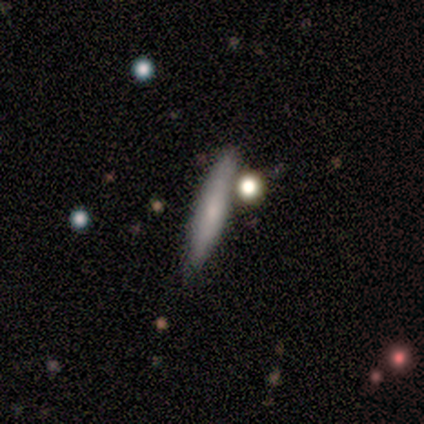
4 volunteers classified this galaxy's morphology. smooth_or_featured: featured or disk (p=0.75) [alt: smooth p=0.25]
disk_edge_on: yes (p=1.00)
edge_on_bulge: none (p=0.67) [alt: rounded p=0.33]
merging: minor disturbance (p=0.50) [alt: none p=0.25]